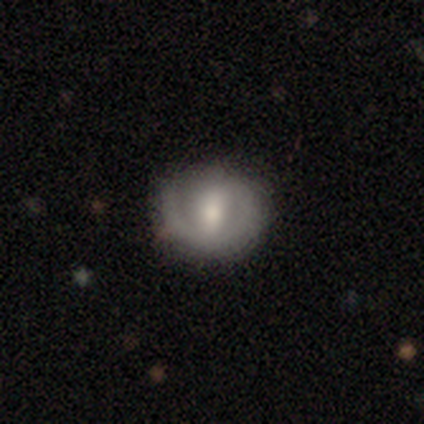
Volunteers were most divided on "spiral arm count" (2-way tie): 1: 50%, 2: 50%, 3: 0%, 4: 0%, more than 4: 0%, can't tell: 0%; "bulge size" (2-way tie): moderate: 50%, none: 50%, dominant: 0%, large: 0%, small: 0%. More confident: smooth or featured — featured or disk (100%); edge-on disk — no (100%); bar — strong (100%); spiral arms — yes (100%); spiral winding — tight (100%); merging — none (100%).